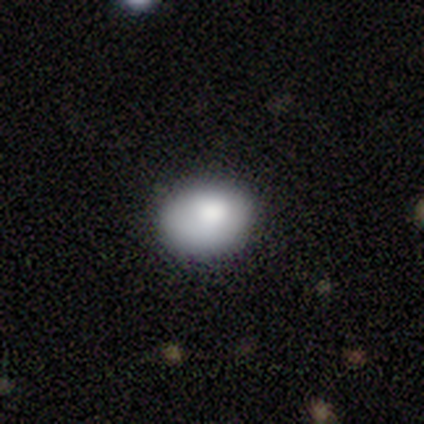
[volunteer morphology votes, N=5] This is clearly a smooth galaxy (100%). How rounded: likely in between (60%). Merging: clearly none (80%).